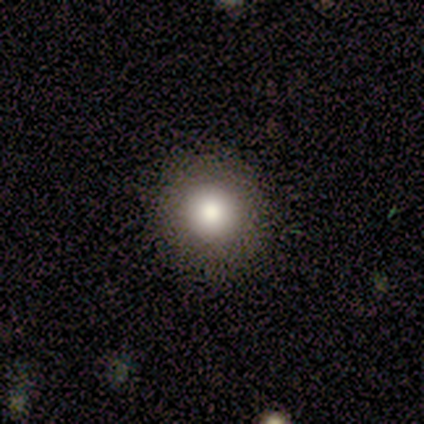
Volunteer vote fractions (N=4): Q: Smooth or featured?
A: smooth (50%); runner-up: featured or disk (25%)
Q: How rounded?
A: round (100%)
Q: Merging?
A: none (100%)